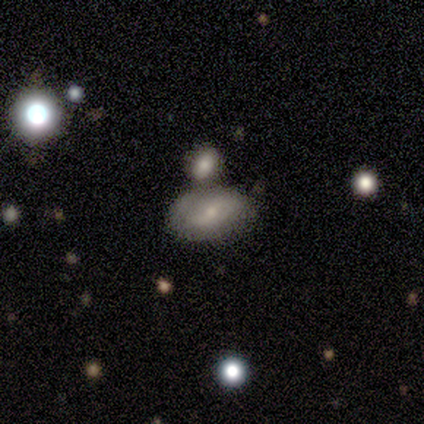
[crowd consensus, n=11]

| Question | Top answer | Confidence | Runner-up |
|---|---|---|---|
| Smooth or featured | smooth | 64% | featured or disk (36%) |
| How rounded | in between | 100% | — |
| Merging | none | 45% | merger (36%) |